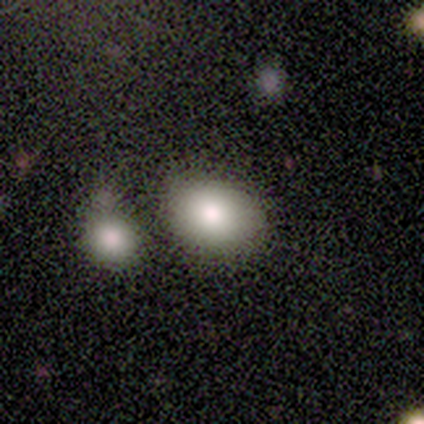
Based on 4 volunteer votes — smooth_or_featured: smooth (p=1.00)
how_rounded: round (p=0.75) [alt: in between p=0.25]
merging: none (p=0.50) [tied with: minor disturbance p=0.50]